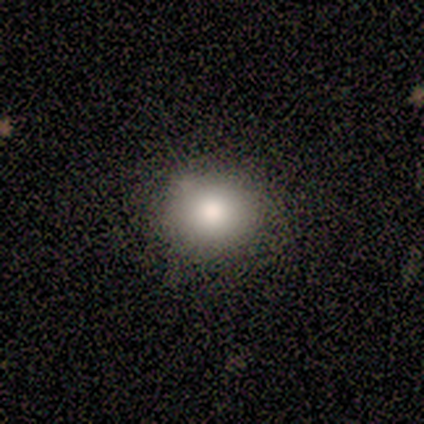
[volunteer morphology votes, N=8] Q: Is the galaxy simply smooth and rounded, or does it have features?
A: smooth — 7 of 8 (88%).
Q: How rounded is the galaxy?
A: round — 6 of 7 (86%).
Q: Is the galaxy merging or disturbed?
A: none — 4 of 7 (57%).